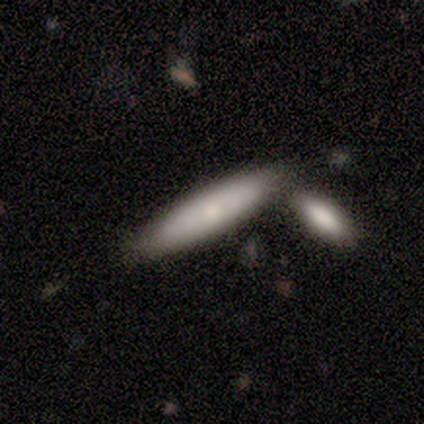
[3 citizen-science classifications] This appears to be a smooth galaxy with no disk features (67%) that is in between round and cigar-shaped (50%, tied with cigar-shaped). Merging: none (67%).